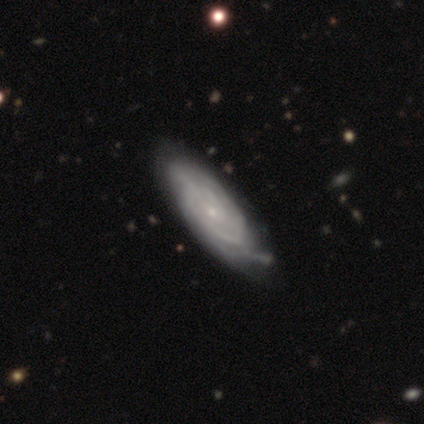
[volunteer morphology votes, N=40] featured or disk 85%, smooth 12%, star or artifact 2%. Down the decision tree: edge-on disk — no (91%); bar — no (74%); spiral arms — yes (97%); spiral arm count — can't tell (67%); spiral winding — tight (73%); bulge size — small (87%); merging — none (56%).